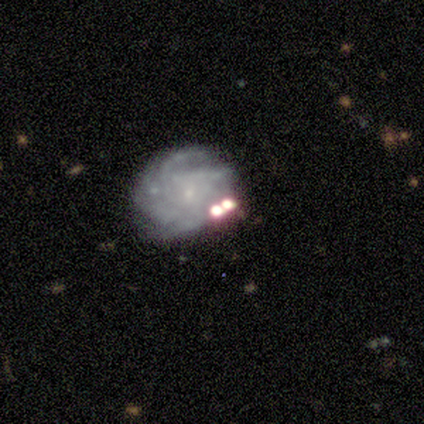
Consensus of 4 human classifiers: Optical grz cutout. It shows a featured or disk galaxy (75%) with no bar (100%), 4 (67%) medium (67%) spiral arms (100%) and a small central bulge (100%). Merging: none (75%).